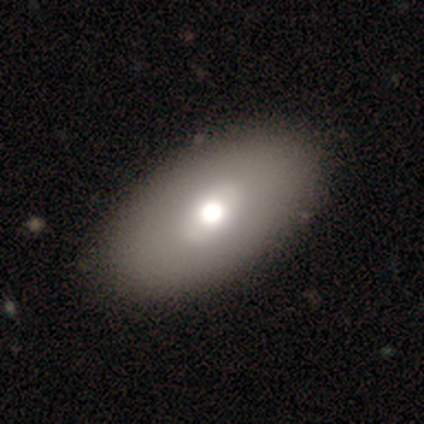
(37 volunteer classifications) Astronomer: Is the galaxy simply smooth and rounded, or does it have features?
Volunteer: smooth — 70%.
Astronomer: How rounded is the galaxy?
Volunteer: in between — 88%.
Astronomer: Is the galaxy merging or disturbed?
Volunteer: none — 69%.